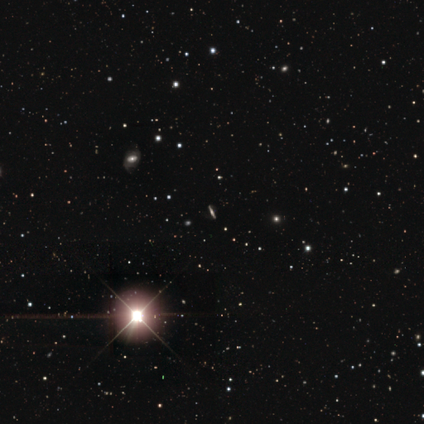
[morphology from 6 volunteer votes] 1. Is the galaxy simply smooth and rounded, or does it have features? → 83% star or artifact, 17% featured or disk, 0% smooth.